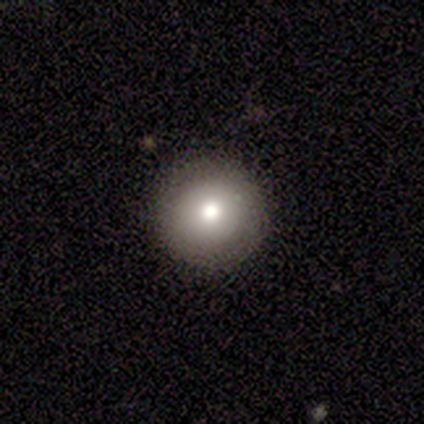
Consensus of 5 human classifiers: Smooth or featured? smooth (80%)
How rounded? round (100%)
Merging? none (100%)